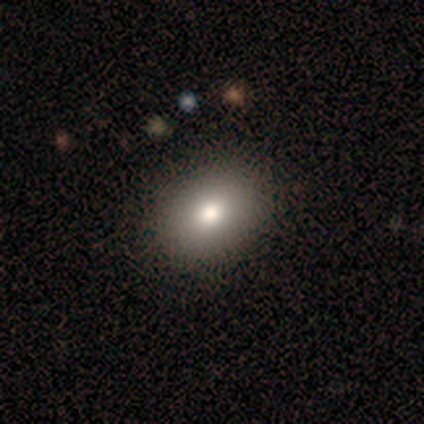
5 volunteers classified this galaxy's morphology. A smooth galaxy with no disk features (60%) that is in between round and cigar-shaped (100%). Merging: none (100%).